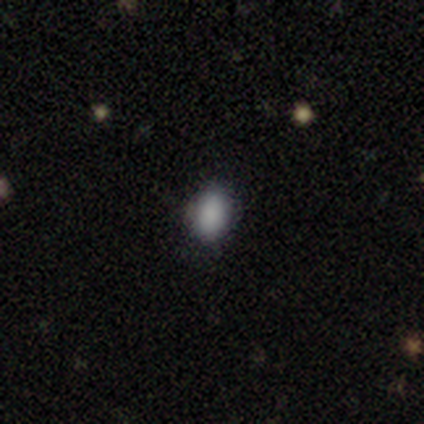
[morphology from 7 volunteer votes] Smooth or featured?
  - smooth: 100% *
  - featured or disk: 0%
  - star or artifact: 0%
How rounded?
  - in between: 57% *
  - round: 43%
  - cigar-shaped: 0%
Merging?
  - none: 100% *
  - minor disturbance: 0%
  - major disturbance: 0%
  - merger: 0%